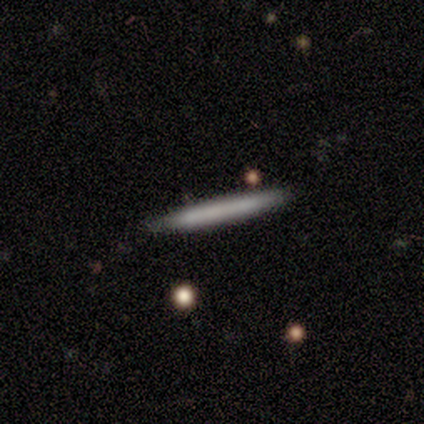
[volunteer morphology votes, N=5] A smooth galaxy with no disk features (100%) that is cigar-shaped (100%).

Vote fractions:
- Smooth or featured? smooth: 100% / featured or disk: 0% / star or artifact: 0%
- How rounded? cigar-shaped: 100% / round: 0% / in between: 0%
- Merging? none: 100% / minor disturbance: 0% / major disturbance: 0% / merger: 0%